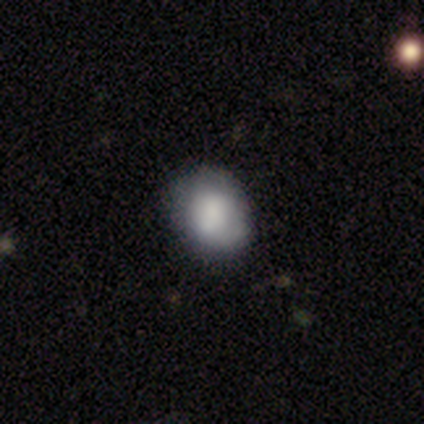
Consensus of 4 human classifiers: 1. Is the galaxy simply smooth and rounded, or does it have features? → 50% smooth, 25% featured or disk, 25% star or artifact.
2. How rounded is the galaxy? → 50% round (tied), 50% in between (tied), 0% cigar-shaped.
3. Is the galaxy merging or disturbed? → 33% none (tied), 33% minor disturbance (tied), 33% major disturbance (tied), 0% merger.